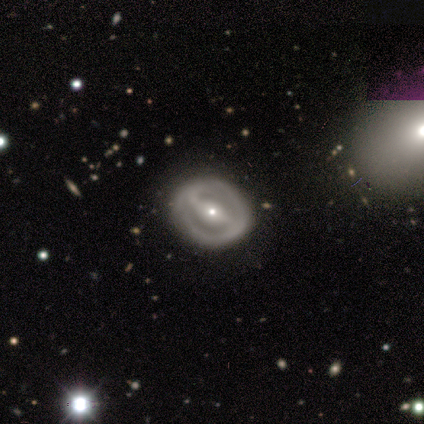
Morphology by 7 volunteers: featured or disk 43%, smooth 29%, star or artifact 29%. Down the decision tree: edge-on disk — no (100%); bar — weak (67%); spiral arms — no (67%); bulge size — moderate (67%); merging — none (100%).